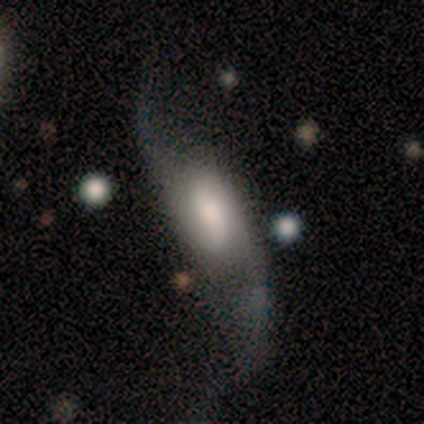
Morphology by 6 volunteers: Smooth or featured?
  - featured or disk: 83% *
  - smooth: 17%
  - star or artifact: 0%
Edge-on disk?
  - no: 100% *
  - yes: 0%
Bar?
  - weak: 40% * (tied)
  - no: 40% * (tied)
  - strong: 20%
Spiral arms?
  - yes: 100% *
  - no: 0%
Spiral winding?
  - loose: 60% *
  - medium: 40%
  - tight: 0%
Spiral arm count?
  - 2: 100% *
  - 1: 0%
  - 3: 0%
  - 4: 0%
  - more than 4: 0%
  - can't tell: 0%
Bulge size?
  - large: 60% *
  - moderate: 40%
  - dominant: 0%
  - small: 0%
  - none: 0%
Merging?
  - none: 67% *
  - minor disturbance: 17%
  - major disturbance: 17%
  - merger: 0%